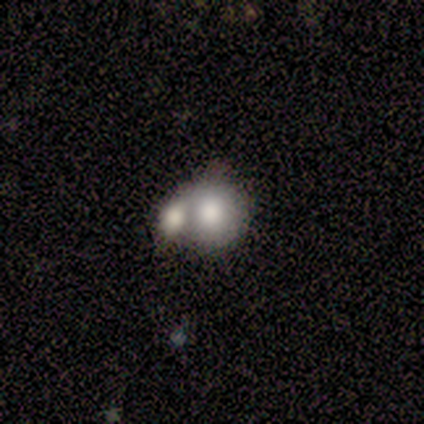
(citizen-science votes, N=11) Smooth or featured: smooth — 73% (featured or disk — 27%)
How rounded: round — 50% (tied with in between — 50%)
Merging: merger — 91% (none — 9%)